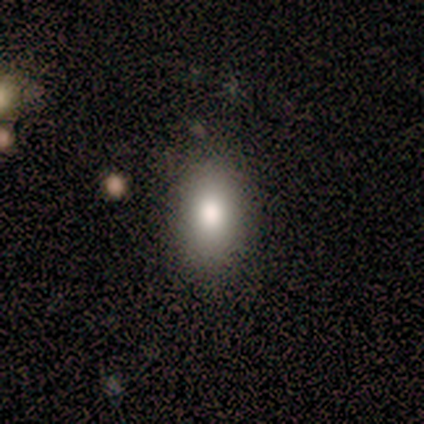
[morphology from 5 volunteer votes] smooth 80%, featured or disk 20%, star or artifact 0%. Down the decision tree: how rounded — in between (75%); merging — none (100%).